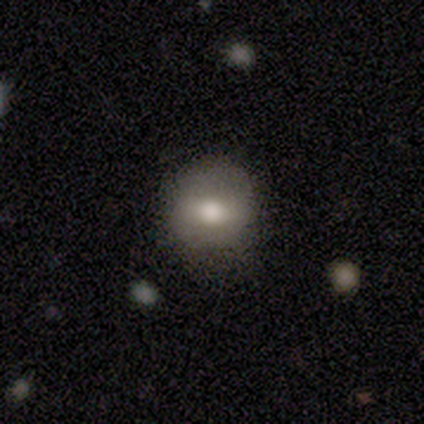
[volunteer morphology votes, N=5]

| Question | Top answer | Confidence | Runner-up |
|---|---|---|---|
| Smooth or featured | smooth | 100% | — |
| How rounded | round | 100% | — |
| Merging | none | 60% | minor disturbance (40%) |